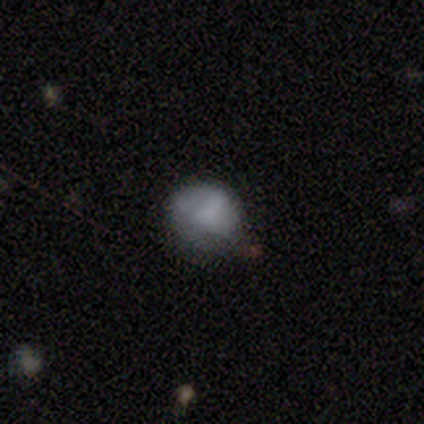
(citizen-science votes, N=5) smooth-or-featured: smooth: 60% | featured or disk: 20% | star or artifact: 20%
  how-rounded: round: 100% | in between: 0% | cigar-shaped: 0%
  merging: none: 75% | minor disturbance: 25% | major disturbance: 0% | merger: 0%